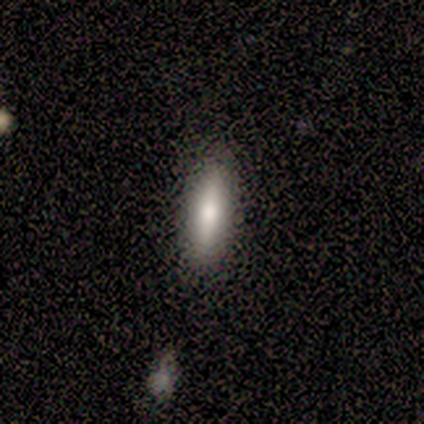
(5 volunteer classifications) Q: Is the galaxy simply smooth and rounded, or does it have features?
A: smooth — 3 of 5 (60%).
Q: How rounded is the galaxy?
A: cigar-shaped — 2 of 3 (67%).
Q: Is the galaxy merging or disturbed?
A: none — 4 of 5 (80%).